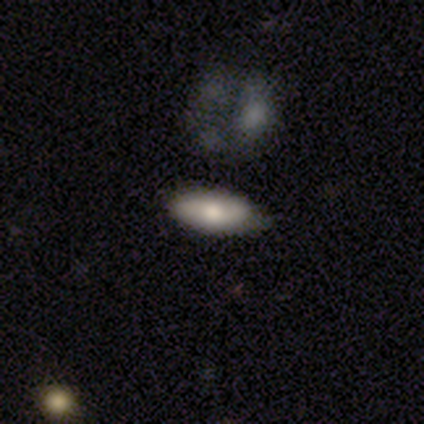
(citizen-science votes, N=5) A smooth galaxy with no disk features (100%) that is in between round and cigar-shaped (80%).

Vote fractions:
- Smooth or featured? smooth: 100% / featured or disk: 0% / star or artifact: 0%
- How rounded? in between: 80% / cigar-shaped: 20% / round: 0%
- Merging? none: 60% / minor disturbance: 40% / major disturbance: 0% / merger: 0%